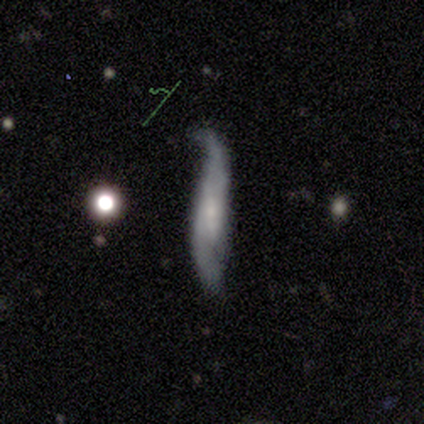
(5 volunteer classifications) featured or disk 60%, smooth 40%, star or artifact 0%. Down the decision tree: edge-on disk — no (67%); bar — weak (100%); spiral arms — yes (50%, tied with no); spiral arm count — 2 (100%); spiral winding — loose (100%); bulge size — large (50%, tied with none); merging — major disturbance (40%).